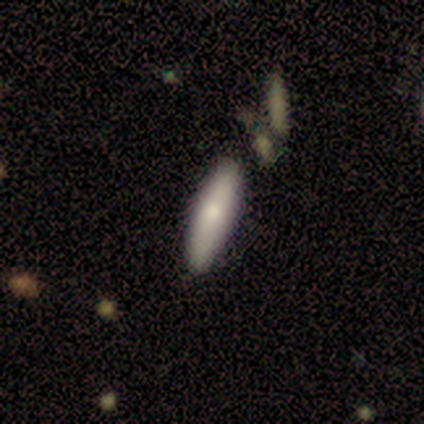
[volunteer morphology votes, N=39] A smooth galaxy with no disk features (79%) that is cigar-shaped (71%).

Vote fractions:
- Smooth or featured? smooth: 79% / featured or disk: 21% / star or artifact: 0%
- How rounded? cigar-shaped: 71% / in between: 29% / round: 0%
- Merging? none: 56% / minor disturbance: 15% / major disturbance: 3% / merger: 3%